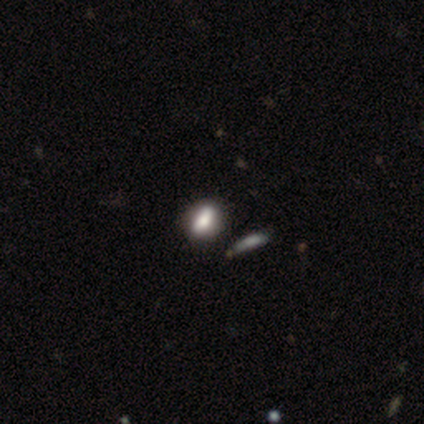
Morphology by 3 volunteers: This appears to be a smooth galaxy with no disk features (67%) that is in between round and cigar-shaped (100%). Merging: none (50%, tied with minor disturbance).